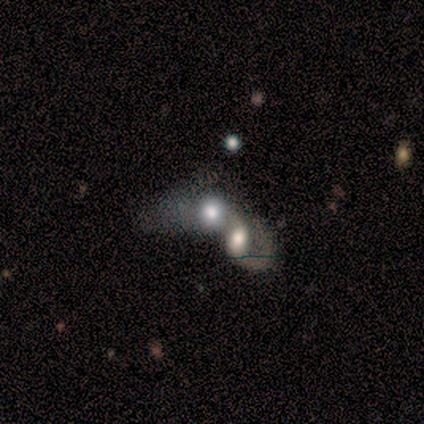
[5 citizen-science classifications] Morphology: type=smooth (60%); roundness=in between (67%); merging=merger (80%).